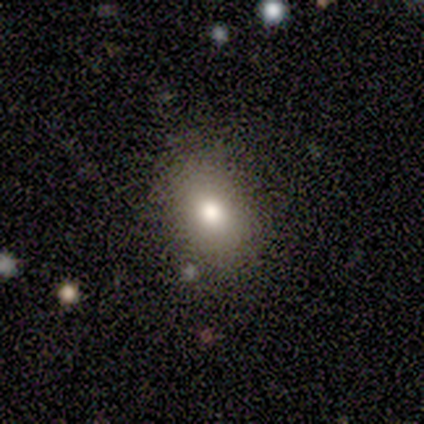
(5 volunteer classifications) Smooth or featured? smooth (100%)
How rounded? in between (80%)
Merging? none (80%)